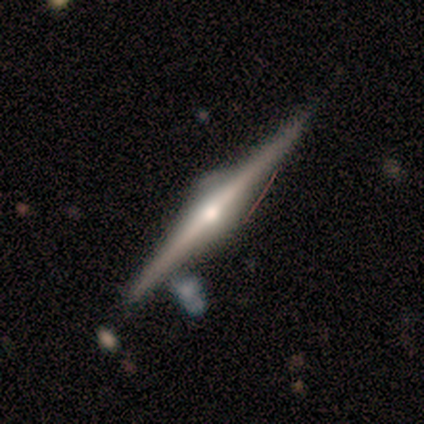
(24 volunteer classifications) smooth_or_featured: featured or disk (p=0.96) [alt: smooth p=0.04]
disk_edge_on: yes (p=1.00)
edge_on_bulge: rounded (p=1.00)
merging: none (p=0.79) [alt: minor disturbance p=0.21]